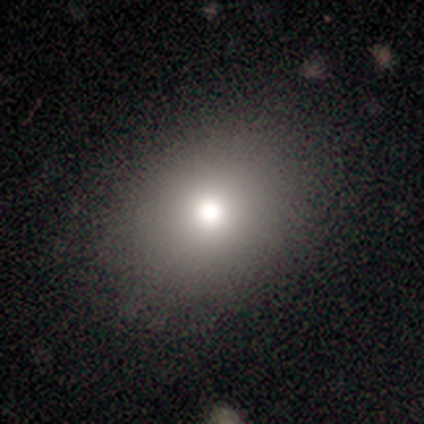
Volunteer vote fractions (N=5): smooth-or-featured: smooth: 80% | star or artifact: 20% | featured or disk: 0%
  how-rounded: round: 75% | in between: 25% | cigar-shaped: 0%
  merging: none: 75% | minor disturbance: 25% | major disturbance: 0% | merger: 0%